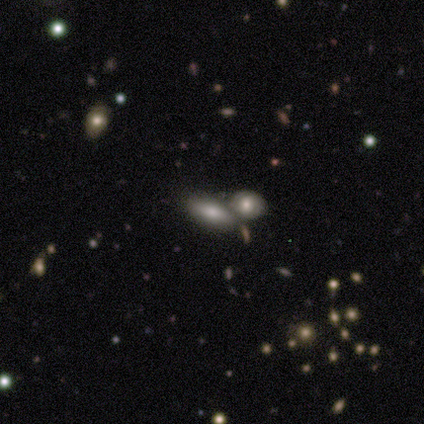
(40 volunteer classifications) Smooth or featured? 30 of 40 (75%) said smooth. How rounded? 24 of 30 (80%) said in between. Merging? 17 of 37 (46%, tied with merger) said none.